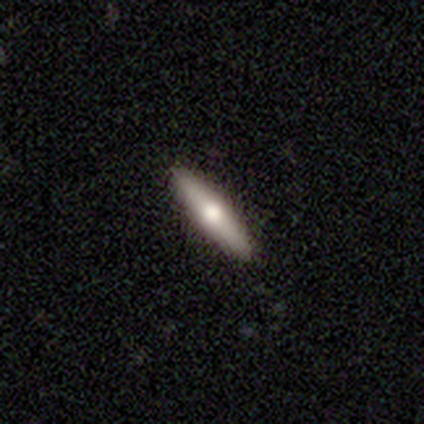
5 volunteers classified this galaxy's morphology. Smooth or featured?
  - featured or disk: 60% *
  - smooth: 40%
  - star or artifact: 0%
Edge-on disk?
  - yes: 100% *
  - no: 0%
Edge-on bulge?
  - none: 67% *
  - rounded: 33%
  - boxy: 0%
Merging?
  - none: 100% *
  - minor disturbance: 0%
  - major disturbance: 0%
  - merger: 0%